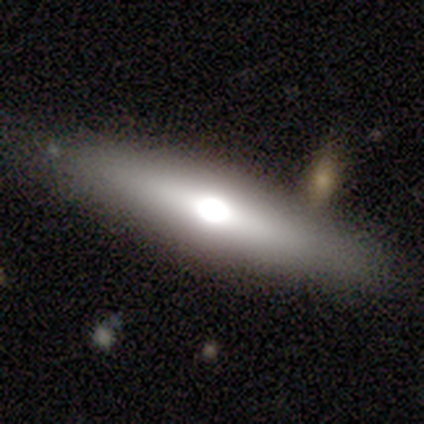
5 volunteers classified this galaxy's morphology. A smooth galaxy with no disk features (60%) that is in between round and cigar-shaped (67%). Merging: none (100%).